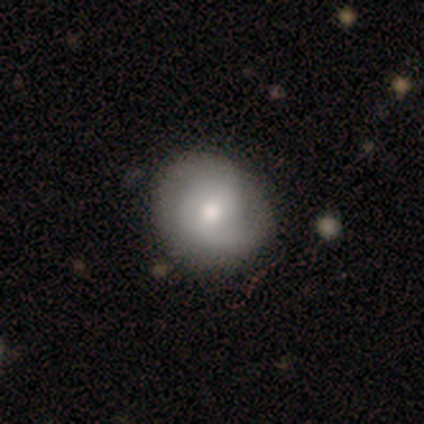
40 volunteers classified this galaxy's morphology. Smooth or featured? 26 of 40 (65%) said featured or disk. Edge-on disk? 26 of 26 (100%) said no. Bar? 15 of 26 (58%) said no. Spiral arms? 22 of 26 (85%) said yes. Spiral winding? 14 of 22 (64%) said tight. Spiral arm count? 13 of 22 (59%) said 2. Bulge size? 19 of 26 (73%) said moderate. Merging? 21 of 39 (54%) said none.